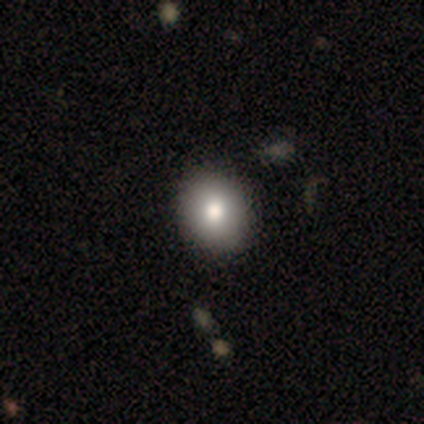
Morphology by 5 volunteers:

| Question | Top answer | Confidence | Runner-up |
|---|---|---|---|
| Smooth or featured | smooth | 100% | — |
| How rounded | round | 60% | in between (40%) |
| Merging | none | 100% | — |